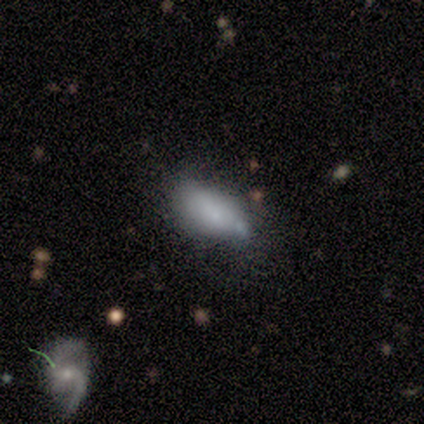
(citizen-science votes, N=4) A smooth galaxy with no disk features (75%) that is in between round and cigar-shaped (100%).

Vote fractions:
- Smooth or featured? smooth: 75% / featured or disk: 25% / star or artifact: 0%
- How rounded? in between: 100% / round: 0% / cigar-shaped: 0%
- Merging? none: 50% / minor disturbance: 25% / major disturbance: 25% / merger: 0%